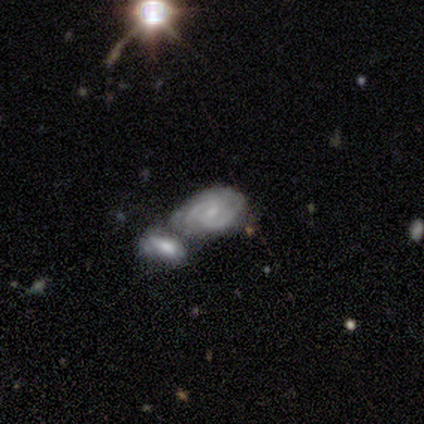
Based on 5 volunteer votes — Overall: featured or disk (80%). Edge-on disk: no (100%). Bar: weak (75%). Spiral arms: yes (100%). Spiral arm count: 2 (75%). Spiral winding: medium (75%). Bulge size: small (75%). Merging: merger (60%; minor disturbance 40%).